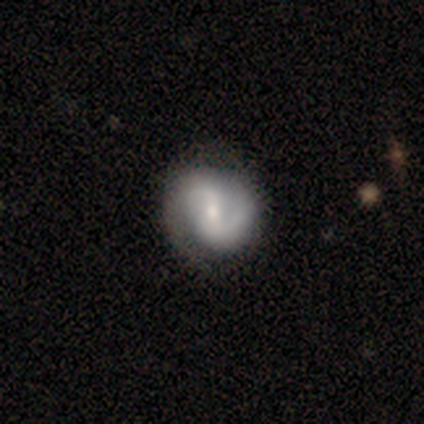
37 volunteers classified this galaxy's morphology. This is clearly a featured or disk galaxy (81%). It is clearly not viewed edge-on (97%). Bar: likely weak (66%). Spiral arm pattern: clearly yes (93%). Spiral arm count: clearly 2 (89%). Spiral winding: possibly medium (48%). Central bulge: possibly small (59%). Merging: possibly none (54%).